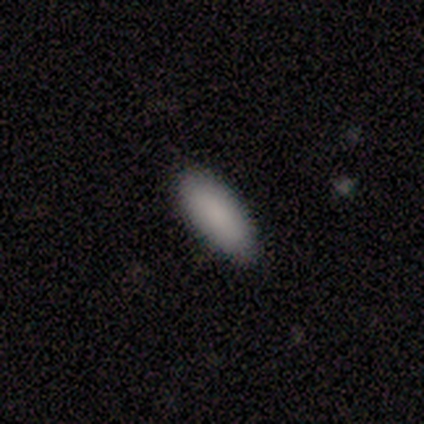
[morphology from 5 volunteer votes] Q: Smooth or featured?
A: smooth (100%)
Q: How rounded?
A: in between (60%); runner-up: round (20%)
Q: Merging?
A: none (100%)